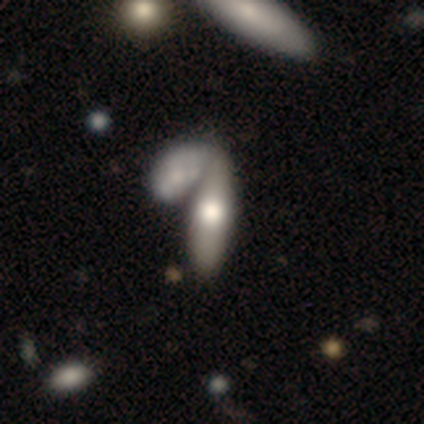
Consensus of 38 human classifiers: This is likely a smooth galaxy (71%). How rounded: possibly in between (48%, tied with cigar-shaped). Merging: possibly merger (59%).